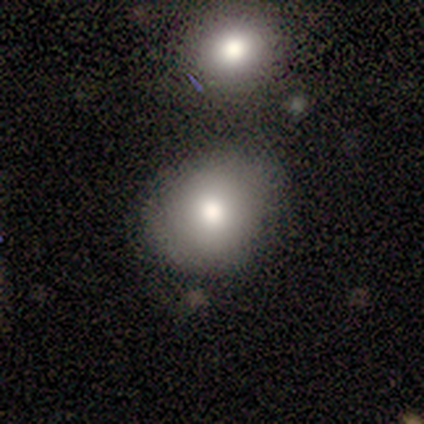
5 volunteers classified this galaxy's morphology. smooth_or_featured: smooth (p=0.80) [alt: star or artifact p=0.20]
how_rounded: round (p=0.75) [alt: in between p=0.25]
merging: none (p=0.75) [alt: major disturbance p=0.25]